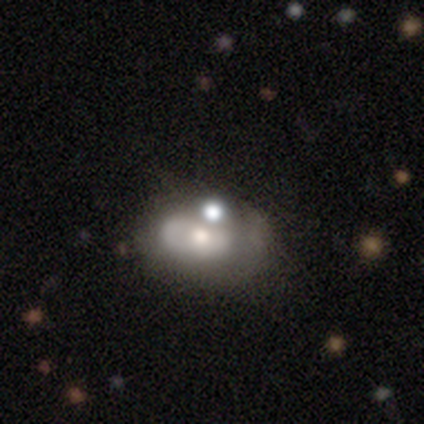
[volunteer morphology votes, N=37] Smooth or featured? 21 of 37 (57%) said featured or disk. Edge-on disk? 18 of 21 (86%) said no. Bar? 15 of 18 (83%) said no. Spiral arms? 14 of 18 (78%) said no. Bulge size? 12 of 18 (67%) said moderate. Merging? 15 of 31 (48%) said none.